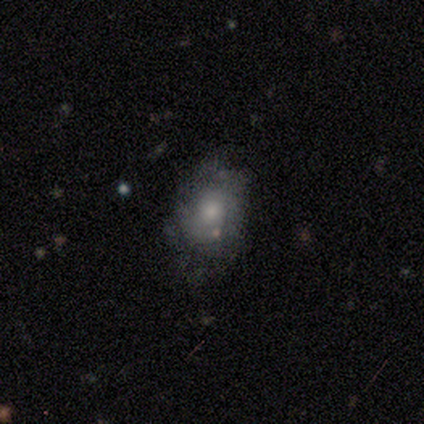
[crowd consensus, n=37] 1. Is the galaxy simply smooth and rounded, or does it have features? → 46% featured or disk, 43% smooth, 11% star or artifact.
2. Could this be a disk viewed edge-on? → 94% no, 6% yes.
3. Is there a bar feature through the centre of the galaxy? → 94% no, 6% weak, 0% strong.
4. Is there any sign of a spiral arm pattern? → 50% yes (tied), 50% no (tied).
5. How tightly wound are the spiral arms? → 62% tight, 25% medium, 12% loose.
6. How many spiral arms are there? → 50% 2 (tied), 50% can't tell (tied), 0% 1, 0% 3, 0% 4, 0% more than 4.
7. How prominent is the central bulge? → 44% moderate, 38% small, 12% large, 6% none, 0% dominant.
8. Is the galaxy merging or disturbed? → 58% none, 24% minor disturbance, 9% major disturbance, 9% merger.